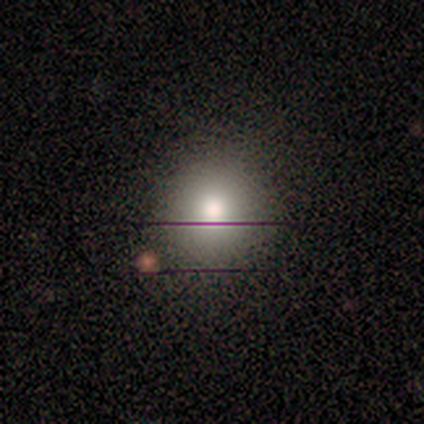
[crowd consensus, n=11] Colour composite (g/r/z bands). It shows a smooth galaxy with no disk features (91%) that is round (100%). Merging: none (70%).